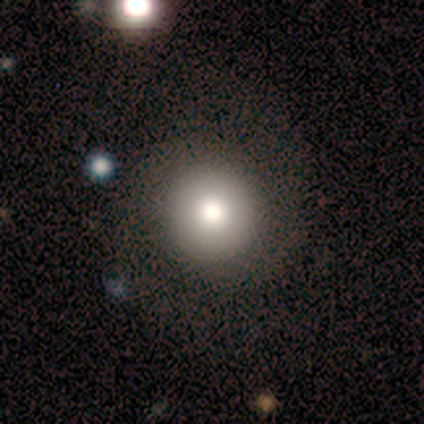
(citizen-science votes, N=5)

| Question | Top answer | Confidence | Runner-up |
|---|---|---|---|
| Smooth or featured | smooth | 80% | featured or disk (20%) |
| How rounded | round | 100% | — |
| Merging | none | 80% | minor disturbance (20%) |